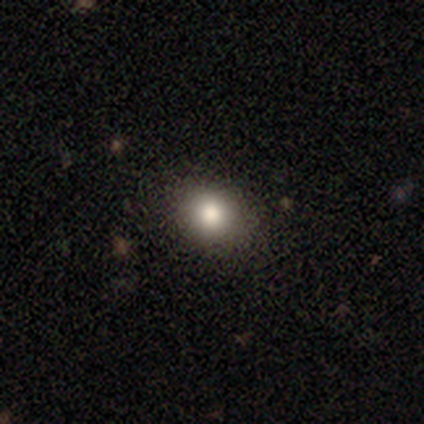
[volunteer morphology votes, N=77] This is clearly a smooth galaxy (91%). How rounded: likely round (66%). Merging: possibly none (46%).